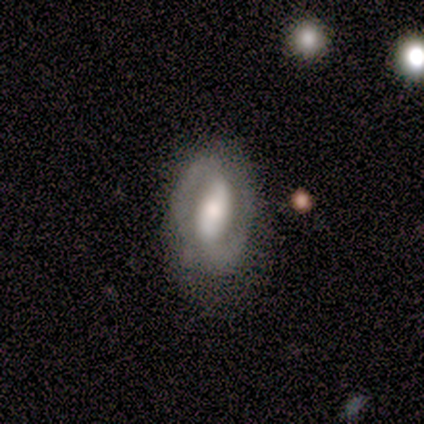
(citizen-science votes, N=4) Smooth or featured? 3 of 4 (75%) said featured or disk. Edge-on disk? 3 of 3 (100%) said no. Bar? 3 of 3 (100%) said strong. Spiral arms? 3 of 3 (100%) said yes. Spiral winding? 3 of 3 (100%) said tight. Spiral arm count? 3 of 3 (100%) said 2. Bulge size? 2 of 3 (67%) said moderate. Merging? 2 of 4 (50%) said minor disturbance.